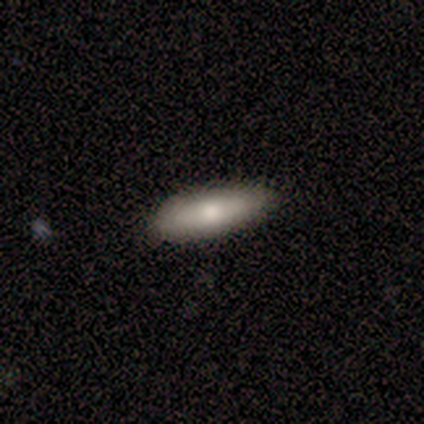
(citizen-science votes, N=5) Smooth or featured? 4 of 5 (80%) said smooth. How rounded? 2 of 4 (50%, tied with cigar-shaped) said in between. Merging? 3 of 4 (75%) said none.